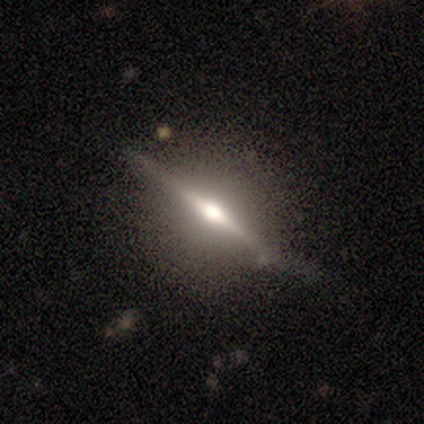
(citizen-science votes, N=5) Q: Smooth or featured?
A: featured or disk (100%)
Q: Edge-on disk?
A: yes (100%)
Q: Edge-on bulge?
A: rounded (80%); runner-up: none (20%)
Q: Merging?
A: none (100%)